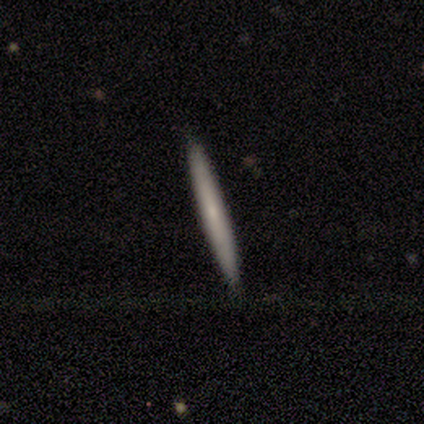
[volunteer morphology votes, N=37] Q: Smooth or featured?
A: smooth (51%); runner-up: featured or disk (43%)
Q: How rounded?
A: cigar-shaped (95%); runner-up: round (5%)
Q: Merging?
A: none (91%); runner-up: minor disturbance (6%)